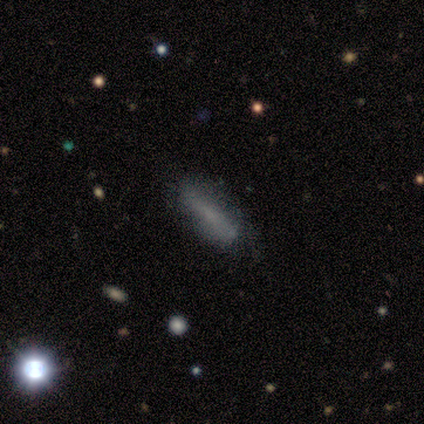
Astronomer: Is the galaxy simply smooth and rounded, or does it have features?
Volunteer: smooth — 64%.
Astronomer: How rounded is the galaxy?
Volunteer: cigar-shaped — 84%.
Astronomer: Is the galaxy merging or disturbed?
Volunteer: none — 84%.